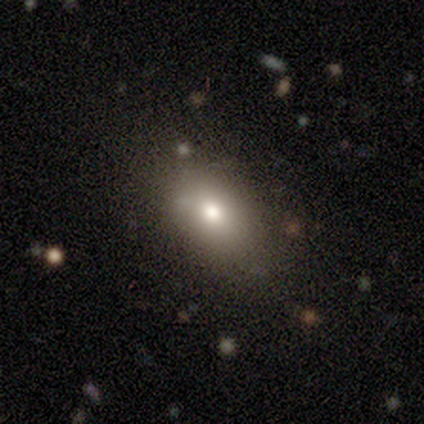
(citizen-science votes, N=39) smooth 77%, featured or disk 18%, star or artifact 5%. Down the decision tree: how rounded — in between (60%); merging — none (68%).